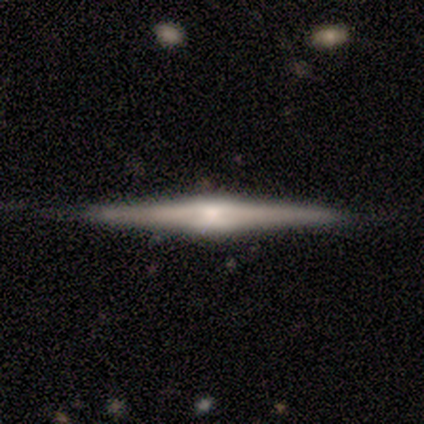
featured or disk 80%, smooth 20%, star or artifact 0%. Down the decision tree: edge-on disk — yes (100%); edge-on bulge — boxy (75%); merging — none (100%).